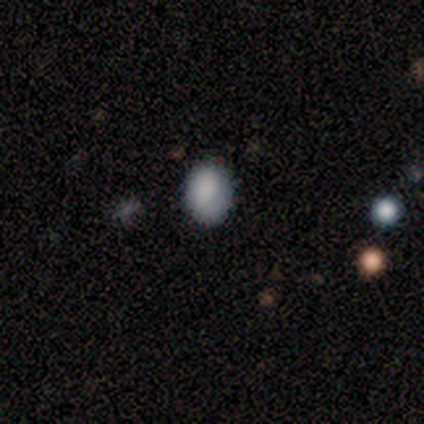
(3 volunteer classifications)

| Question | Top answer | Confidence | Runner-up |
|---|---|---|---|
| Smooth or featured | smooth | 100% | — |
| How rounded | round | 67% | in between (33%) |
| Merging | none | 100% | — |